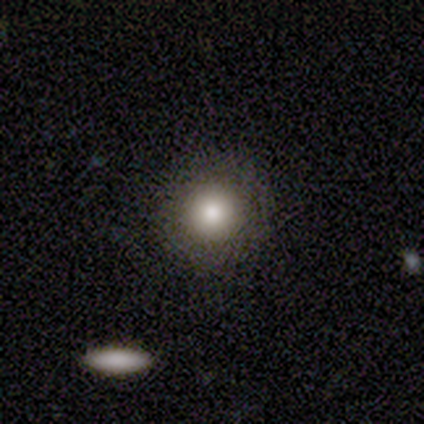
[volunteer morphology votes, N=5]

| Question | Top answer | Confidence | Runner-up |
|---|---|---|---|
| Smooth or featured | smooth | 80% | star or artifact (20%) |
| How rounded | round | 75% | in between (25%) |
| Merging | none | 75% | minor disturbance (25%) |